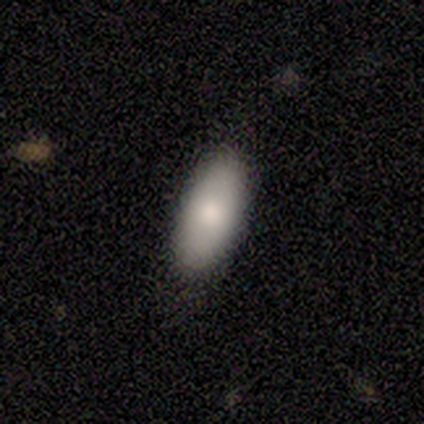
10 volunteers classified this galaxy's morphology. This is clearly a smooth galaxy (100%). How rounded: clearly in between (80%). Merging: clearly none (90%).